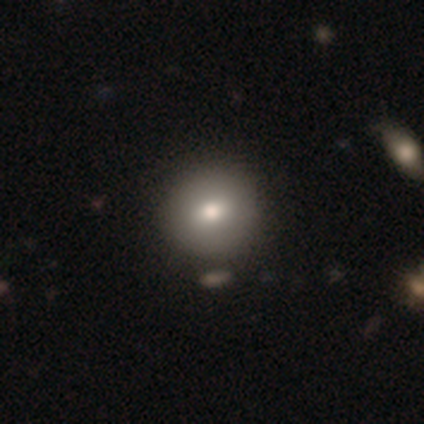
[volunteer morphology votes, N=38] This is likely a smooth galaxy (79%). How rounded: clearly round (93%). Merging: possibly none (51%).